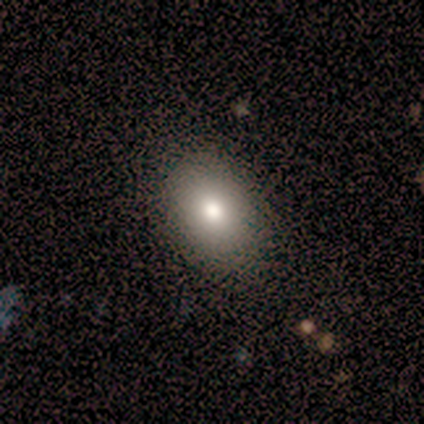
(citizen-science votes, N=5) smooth-or-featured: smooth: 100% | featured or disk: 0% | star or artifact: 0%
  how-rounded: in between: 60% | round: 40% | cigar-shaped: 0%
  merging: none: 100% | minor disturbance: 0% | major disturbance: 0% | merger: 0%